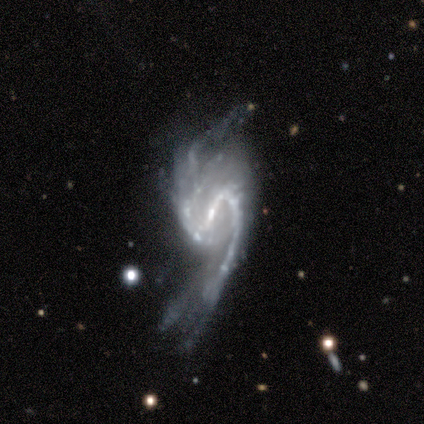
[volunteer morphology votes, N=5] This is clearly a featured or disk galaxy (100%). It is clearly not viewed edge-on (100%). Bar: marginally strong (40%, tied with no). Spiral arm pattern: clearly yes (100%). Spiral arm count: clearly 2 (100%). Spiral winding: likely loose (60%). Central bulge: clearly small (80%). Merging: likely major disturbance (60%).